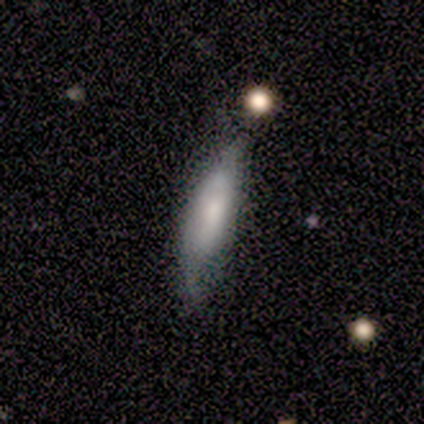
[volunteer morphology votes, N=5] smooth-or-featured: smooth: 60% | featured or disk: 40% | star or artifact: 0%
  how-rounded: cigar-shaped: 100% | round: 0% | in between: 0%
  merging: minor disturbance: 60% | none: 40% | major disturbance: 0% | merger: 0%